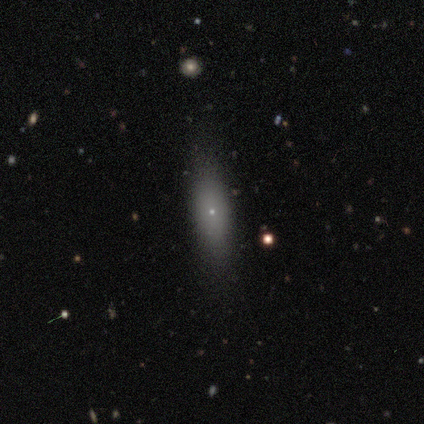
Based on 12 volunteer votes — Smooth or featured? 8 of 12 (67%) said smooth. How rounded? 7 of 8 (88%) said in between. Merging? 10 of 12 (83%) said none.